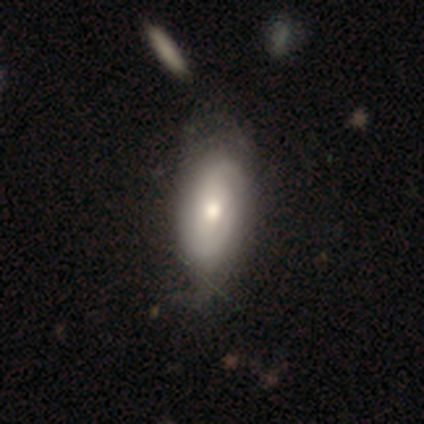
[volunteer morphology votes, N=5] smooth-or-featured: featured or disk: 80% | smooth: 20% | star or artifact: 0%
  disk-edge-on: no: 100% | yes: 0%
    bar: no: 100% | strong: 0% | weak: 0%
    has-spiral-arms: no: 100% | yes: 0%
    bulge-size: moderate: 100% | dominant: 0% | large: 0% | small: 0% | none: 0%
  merging: none: 60% | minor disturbance: 20% | major disturbance: 20% | merger: 0%